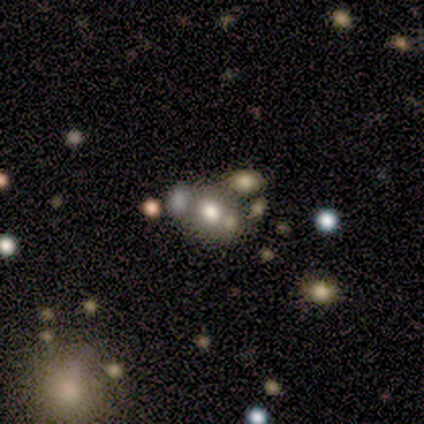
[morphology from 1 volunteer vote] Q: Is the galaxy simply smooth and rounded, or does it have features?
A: featured or disk — 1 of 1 (100%).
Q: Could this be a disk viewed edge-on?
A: no — 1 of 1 (100%).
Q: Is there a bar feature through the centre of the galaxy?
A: no — 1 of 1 (100%).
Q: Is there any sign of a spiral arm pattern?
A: no — 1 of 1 (100%).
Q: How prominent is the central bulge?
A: large — 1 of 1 (100%).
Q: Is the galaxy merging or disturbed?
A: none — 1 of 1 (100%).